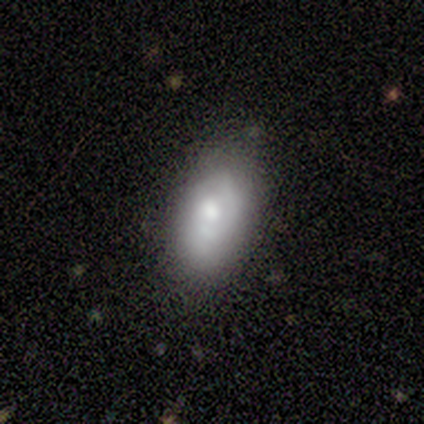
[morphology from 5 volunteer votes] smooth_or_featured: smooth (p=0.60) [alt: featured or disk p=0.20]
how_rounded: in between (p=1.00)
merging: none (p=1.00)